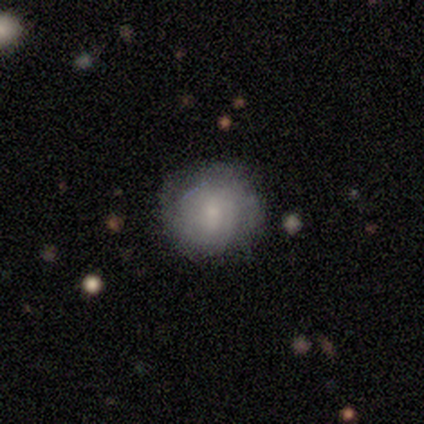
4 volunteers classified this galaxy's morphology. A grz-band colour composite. It shows a smooth galaxy with no disk features (75%) that is round (100%). Merging: none (100%).